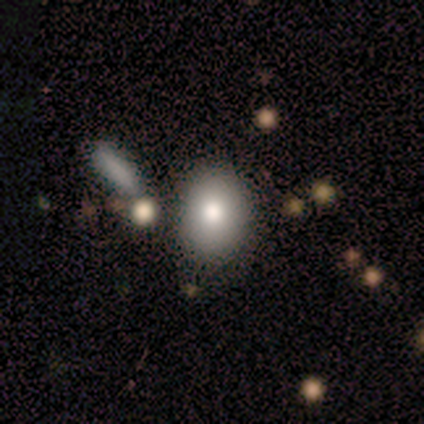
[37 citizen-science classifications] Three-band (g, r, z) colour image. It shows a smooth galaxy with no disk features (62%) that is in between round and cigar-shaped (65%). Merging: none (70%).